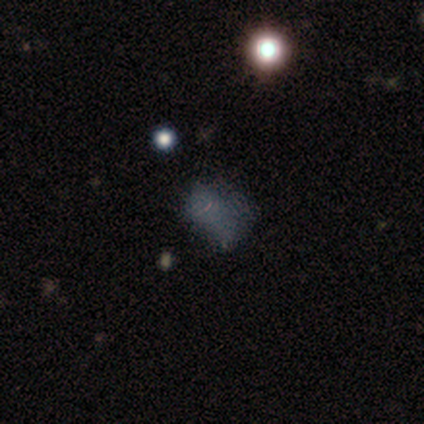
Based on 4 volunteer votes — Smooth or featured? 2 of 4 (50%) said smooth. How rounded? 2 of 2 (100%) said in between. Merging? 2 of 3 (67%) said major disturbance.